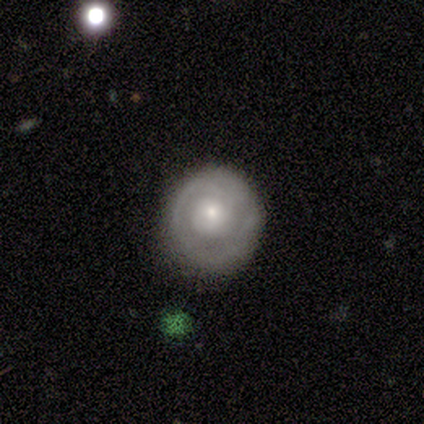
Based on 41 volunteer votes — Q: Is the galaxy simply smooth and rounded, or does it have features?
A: featured or disk — 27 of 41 (66%).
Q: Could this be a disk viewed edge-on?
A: no — 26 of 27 (96%).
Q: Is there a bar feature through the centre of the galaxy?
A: no — 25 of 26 (96%).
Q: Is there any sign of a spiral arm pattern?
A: yes — 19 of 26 (73%).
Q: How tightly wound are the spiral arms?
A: tight — 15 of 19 (79%).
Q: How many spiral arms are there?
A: can't tell — 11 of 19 (58%).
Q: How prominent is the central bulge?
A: small — 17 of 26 (65%).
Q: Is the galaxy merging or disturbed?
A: none — 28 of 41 (68%).